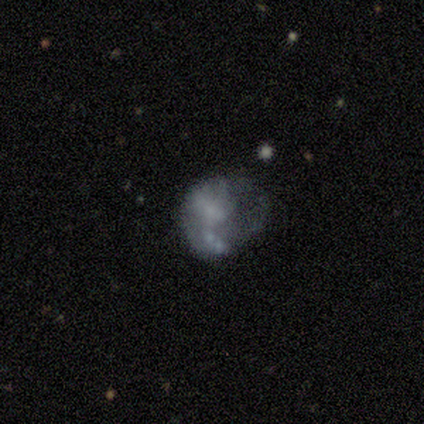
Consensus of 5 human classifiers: featured or disk 80%, smooth 20%, star or artifact 0%. Down the decision tree: edge-on disk — no (100%); bar — no (100%); spiral arms — no (100%); bulge size — none (75%); merging — major disturbance (60%).